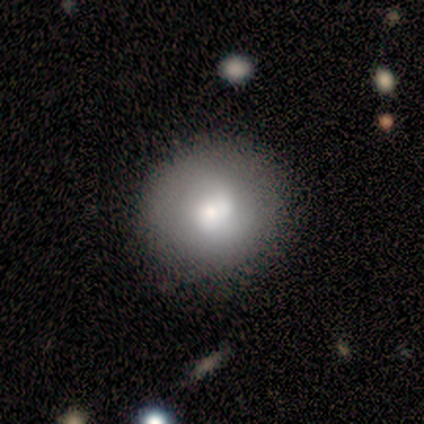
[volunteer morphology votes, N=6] This is likely a smooth galaxy (67%). How rounded: clearly round (100%). Merging: clearly none (83%).